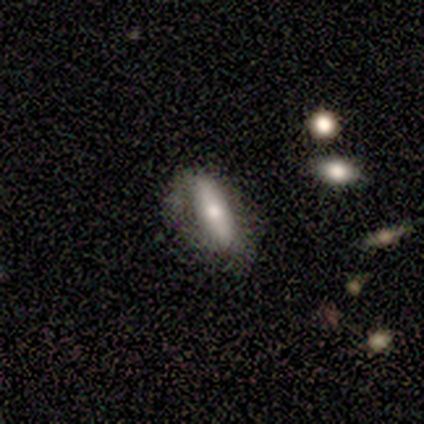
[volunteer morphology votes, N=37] type=smooth (59%); roundness=in between (68%); merging=none (57%).